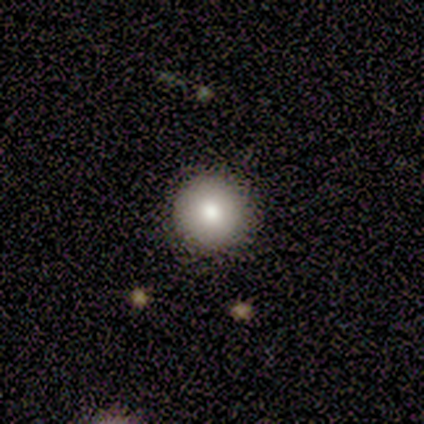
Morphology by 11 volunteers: smooth_or_featured: smooth (p=0.82) [alt: featured or disk p=0.18]
how_rounded: round (p=1.00)
merging: none (p=1.00)